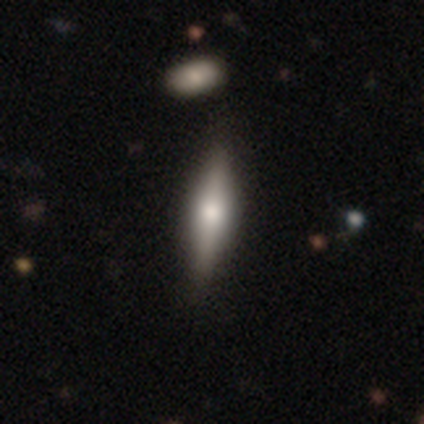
This is possibly a smooth galaxy (59%). How rounded: possibly cigar-shaped (52%). Merging: likely none (64%).